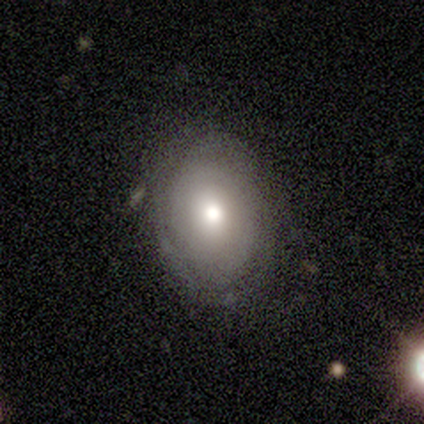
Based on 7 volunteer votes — Overall: smooth (57%; featured or disk 43%). How rounded: round (75%). Merging: none (71%).